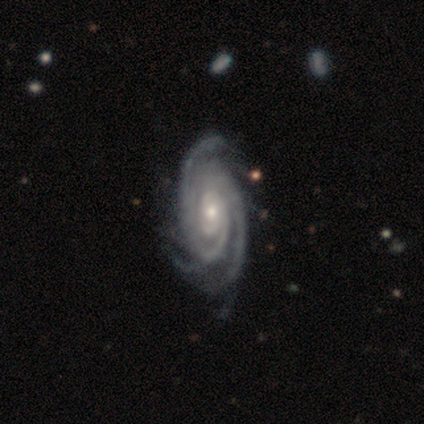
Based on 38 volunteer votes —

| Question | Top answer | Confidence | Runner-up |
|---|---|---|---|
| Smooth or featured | featured or disk | 95% | smooth (3%) |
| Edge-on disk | no | 92% | yes (8%) |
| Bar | no | 82% | weak (15%) |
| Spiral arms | yes | 100% | — |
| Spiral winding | tight | 79% | medium (18%) |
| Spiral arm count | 3 | 48% | 2 (21%) |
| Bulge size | small | 64% | moderate (36%) |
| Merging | none | 43% | minor disturbance (19%) |